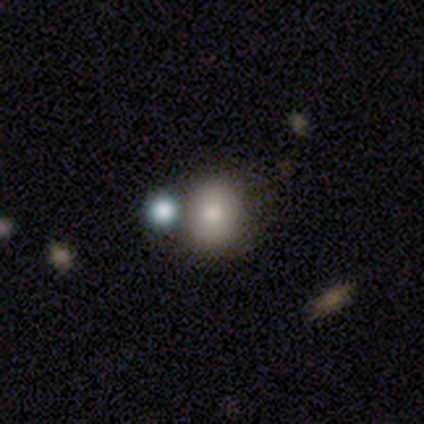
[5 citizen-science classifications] Morphology: type=smooth (80%); roundness=round (75%); merging=none (60%).